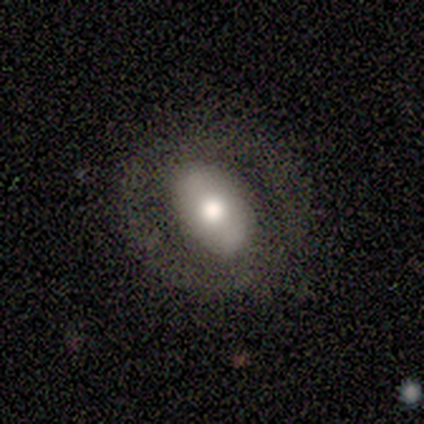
This appears to be a featured or disk galaxy (60%) with a strong bar (33%, tied with weak and no), 2 (67%) medium (100%) spiral arms (100%) and a moderate central bulge (67%). Merging: none (80%).